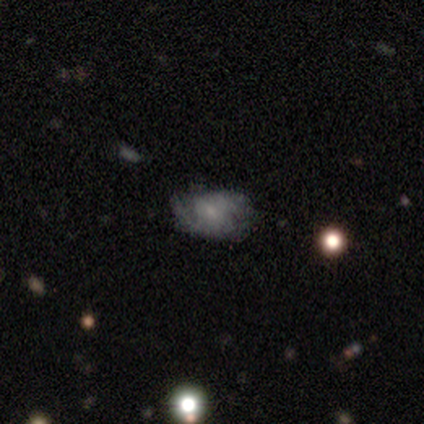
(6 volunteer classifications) Smooth or featured? 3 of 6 (50%, tied with featured or disk) said smooth. How rounded? 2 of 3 (67%) said in between. Merging? 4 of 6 (67%) said none.